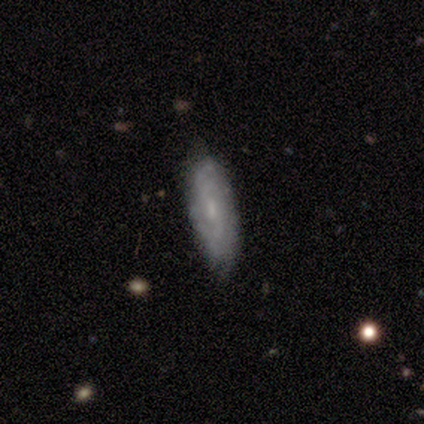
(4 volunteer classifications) smooth_or_featured: featured or disk (p=0.50) [alt: smooth p=0.25]
disk_edge_on: yes (p=0.50) [tied with: no p=0.50]
edge_on_bulge: boxy (p=1.00)
merging: none (p=0.67) [alt: minor disturbance p=0.33]